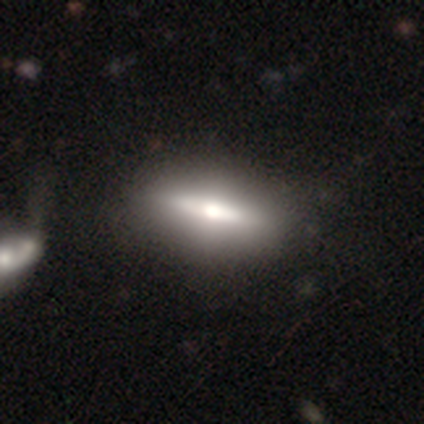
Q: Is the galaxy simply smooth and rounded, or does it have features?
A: featured or disk — 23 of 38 (61%).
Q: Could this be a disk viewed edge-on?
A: yes — 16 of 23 (70%).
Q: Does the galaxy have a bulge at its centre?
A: rounded — 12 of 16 (75%).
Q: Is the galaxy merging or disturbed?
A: none — 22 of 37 (59%).